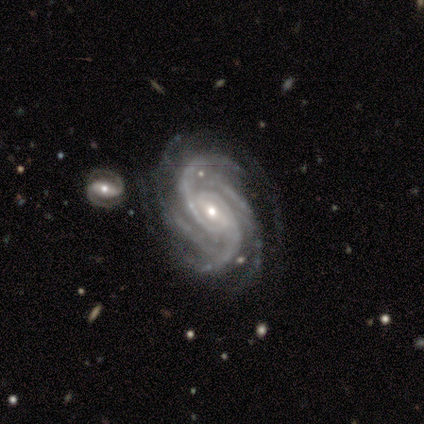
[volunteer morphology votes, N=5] This appears to be a featured or disk galaxy (80%) with a weak bar (100%), 4 (50%) tight (75%) spiral arms (100%) and a moderate central bulge (50%, tied with small). Merging: none (100%).